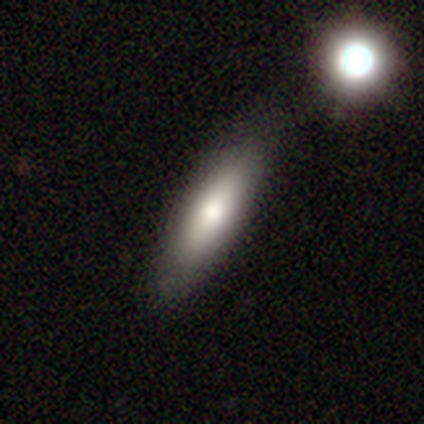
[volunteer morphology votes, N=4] type=smooth (100%); roundness=in between (50%, tied with cigar-shaped); merging=none (75%).